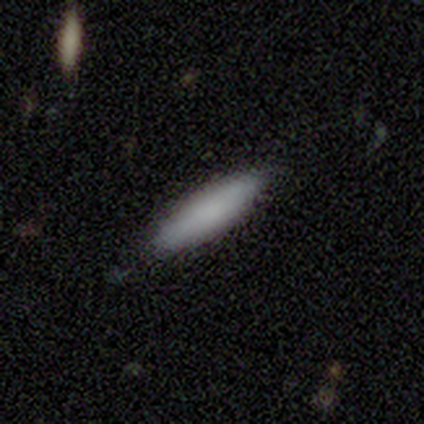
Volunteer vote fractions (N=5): Volunteers were most divided on "how rounded" (2-way tie): in between: 50%, cigar-shaped: 50%, round: 0%. More confident: smooth or featured — smooth (80%); merging — minor disturbance (60%).